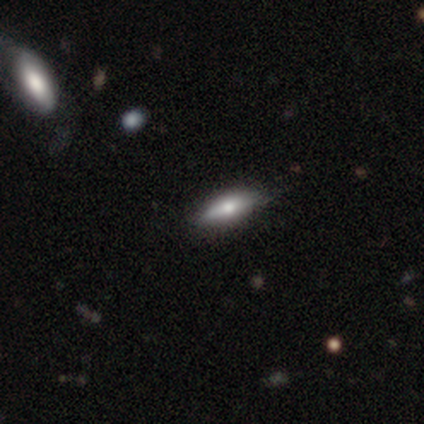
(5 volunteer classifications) smooth_or_featured: smooth (p=0.80) [alt: featured or disk p=0.20]
how_rounded: in between (p=1.00)
merging: none (p=0.80) [alt: minor disturbance p=0.20]